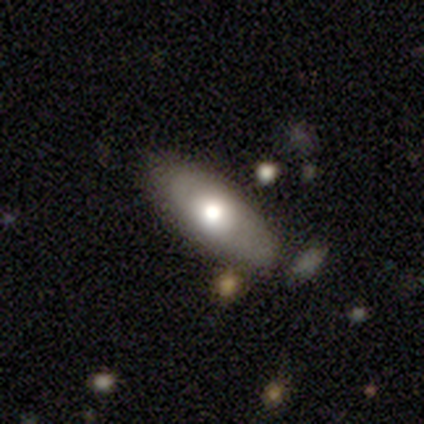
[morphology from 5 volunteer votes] Smooth or featured?
  - featured or disk: 80% *
  - smooth: 20%
  - star or artifact: 0%
Edge-on disk?
  - no: 100% *
  - yes: 0%
Bar?
  - no: 100% *
  - strong: 0%
  - weak: 0%
Spiral arms?
  - no: 100% *
  - yes: 0%
Bulge size?
  - moderate: 75% *
  - large: 25%
  - dominant: 0%
  - small: 0%
  - none: 0%
Merging?
  - none: 40% * (tied)
  - minor disturbance: 40% * (tied)
  - major disturbance: 20%
  - merger: 0%